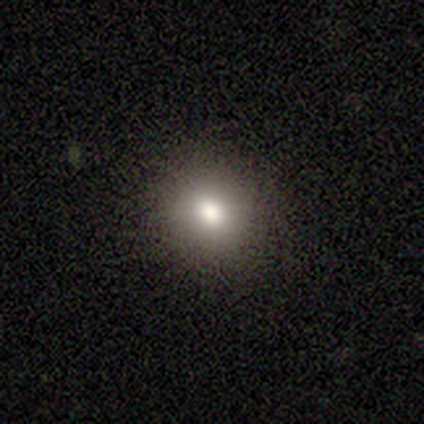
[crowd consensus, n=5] Smooth or featured? smooth (80%)
How rounded? round (100%)
Merging? none (80%)